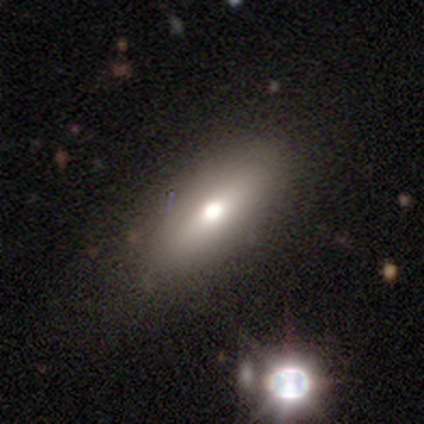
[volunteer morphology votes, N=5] Smooth or featured? 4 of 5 (80%) said featured or disk. Edge-on disk? 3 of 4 (75%) said no. Bar? 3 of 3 (100%) said no. Spiral arms? 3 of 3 (100%) said no. Bulge size? 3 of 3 (100%) said moderate. Merging? 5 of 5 (100%) said none.